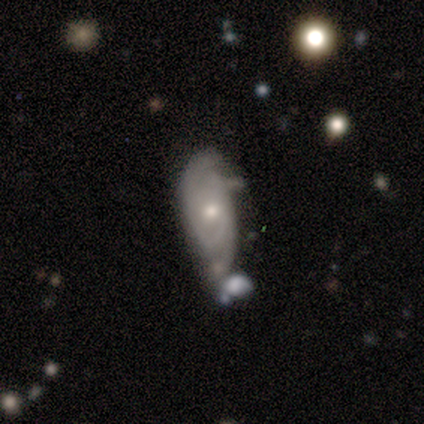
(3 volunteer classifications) featured or disk 100%, smooth 0%, star or artifact 0%. Down the decision tree: edge-on disk — no (100%); bar — no (100%); spiral arms — yes (67%); spiral arm count — 2 (100%); spiral winding — tight (100%); bulge size — small (67%); merging — none (67%).